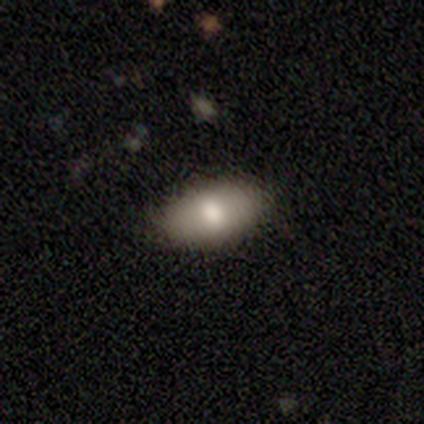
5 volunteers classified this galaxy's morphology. This appears to be a smooth galaxy with no disk features (80%) that is in between round and cigar-shaped (100%). Merging: none (100%).